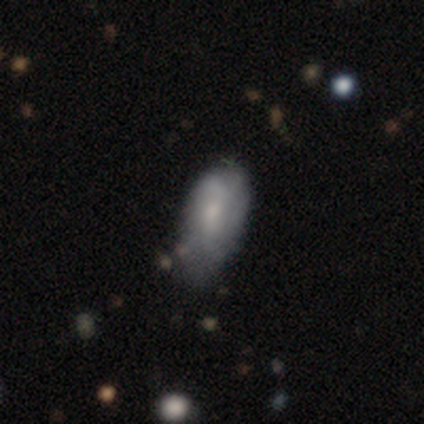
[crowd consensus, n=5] A smooth galaxy with no disk features (60%) that is in between round and cigar-shaped (100%). Merging: none (75%).